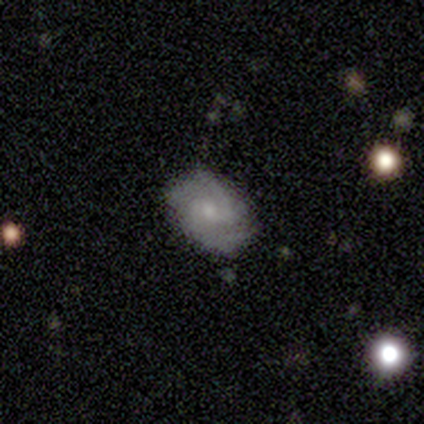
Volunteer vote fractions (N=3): Smooth or featured? featured or disk (100%)
Edge-on disk? no (67%)
Bar? weak (50%, tied with no)
Spiral arms? yes (100%)
Spiral winding? medium (50%, tied with loose)
Spiral arm count? 2 (50%, tied with 4)
Bulge size? moderate (50%, tied with small)
Merging? minor disturbance (100%)